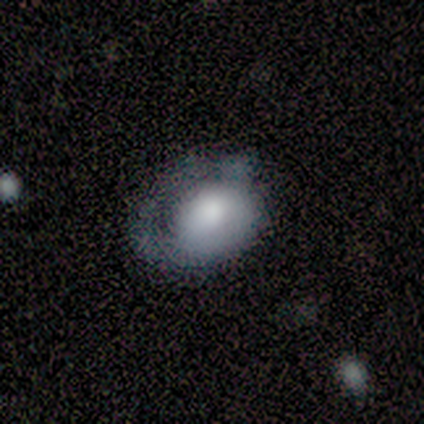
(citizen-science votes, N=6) Overall: smooth (100%). How rounded: in between (83%). Merging: minor disturbance (50%, tied with major disturbance).